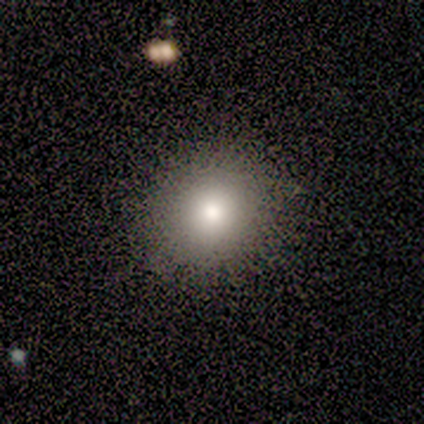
Morphology: type=smooth (60%); roundness=round (100%); merging=none (100%).